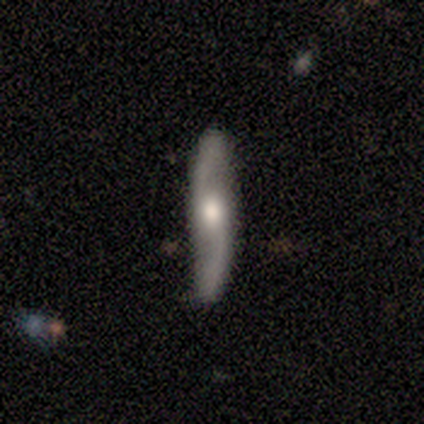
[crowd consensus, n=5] This appears to be a featured or disk galaxy (100%) with no bar (100%), 2 (100%) loose (100%) spiral arms (100%) and a moderate central bulge (100%). Merging: none (100%).